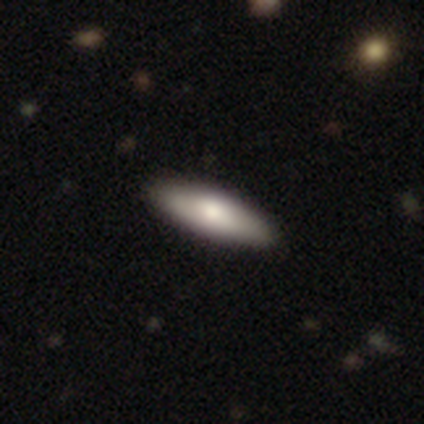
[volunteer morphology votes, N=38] type=smooth (71%); roundness=in between (63%); merging=none (67%).